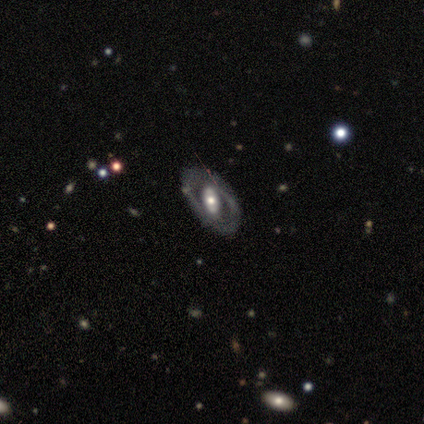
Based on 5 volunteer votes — This appears to be a featured or disk galaxy (60%) with a strong bar (67%), no spiral arms (100%) and a large central bulge (67%). Merging: none (75%).